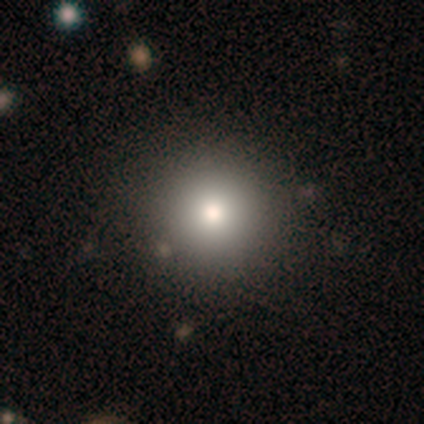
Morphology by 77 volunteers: Smooth or featured: smooth — 82% (star or artifact — 10%)
How rounded: round — 98% (in between — 2%)
Merging: none — 51% (minor disturbance — 4%)